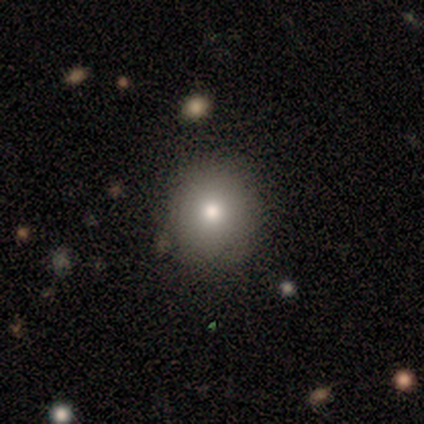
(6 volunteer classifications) Volunteers were most divided on "smooth or featured": smooth: 67%, featured or disk: 17%, star or artifact: 17%. More confident: how rounded — round (100%); merging — none (100%).